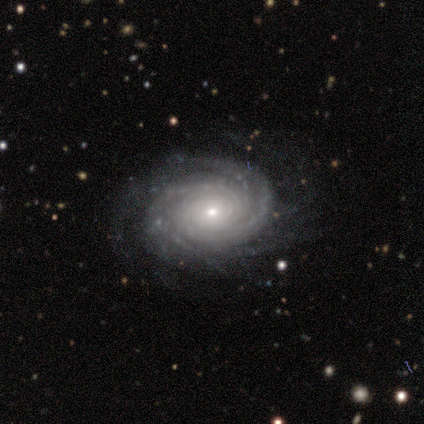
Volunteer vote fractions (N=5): This is clearly a featured or disk galaxy (100%). It is clearly not viewed edge-on (100%). Bar: clearly no (80%). Spiral arm pattern: clearly yes (100%). Spiral arm count: likely 2 (60%). Spiral winding: clearly tight (100%). Central bulge: clearly small (80%). Merging: clearly none (100%).